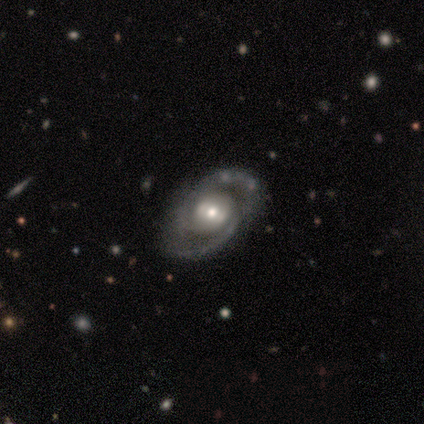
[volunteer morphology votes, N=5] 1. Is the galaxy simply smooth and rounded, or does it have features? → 100% featured or disk, 0% smooth, 0% star or artifact.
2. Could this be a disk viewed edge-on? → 100% no, 0% yes.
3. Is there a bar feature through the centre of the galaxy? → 60% weak, 40% no, 0% strong.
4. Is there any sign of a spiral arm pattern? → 100% yes, 0% no.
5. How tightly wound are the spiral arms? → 60% medium, 20% tight, 20% loose.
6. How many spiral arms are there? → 40% 2, 20% 1, 20% 3, 20% can't tell, 0% 4, 0% more than 4.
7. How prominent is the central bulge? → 100% moderate, 0% dominant, 0% large, 0% small, 0% none.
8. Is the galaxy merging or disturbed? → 60% none, 20% minor disturbance, 20% major disturbance, 0% merger.